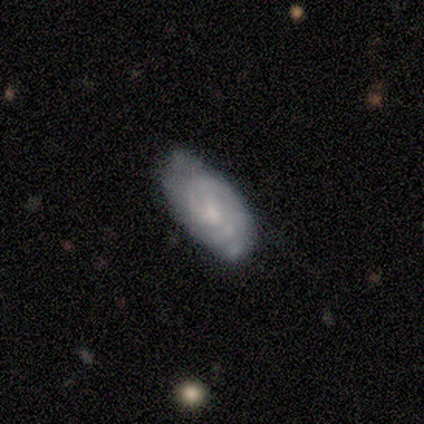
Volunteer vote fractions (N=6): smooth_or_featured: smooth (p=0.50) [tied with: featured or disk p=0.50]
how_rounded: in between (p=0.67) [alt: cigar-shaped p=0.33]
merging: none (p=0.50) [tied with: minor disturbance p=0.50]